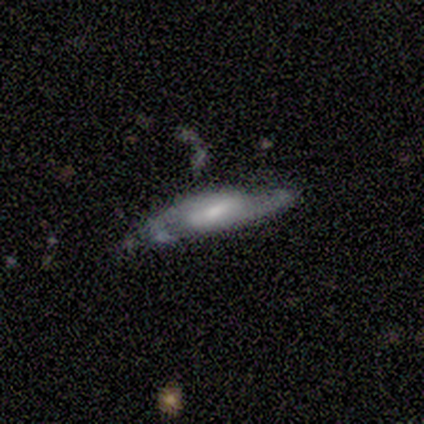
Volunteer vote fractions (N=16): Morphology: type=featured or disk (94%); edge-on=no (73%); bar=weak (64%); spiral arms=yes (91%); winding=medium (60%); arm count=2 (90%); bulge=moderate (45%, tied with small); merging=none (56%).